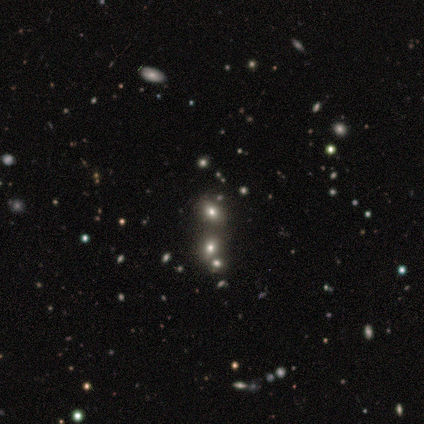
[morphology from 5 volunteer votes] Smooth or featured?
  - smooth: 60% *
  - star or artifact: 40%
  - featured or disk: 0%
How rounded?
  - in between: 100% *
  - round: 0%
  - cigar-shaped: 0%
Merging?
  - none: 100% *
  - minor disturbance: 0%
  - major disturbance: 0%
  - merger: 0%